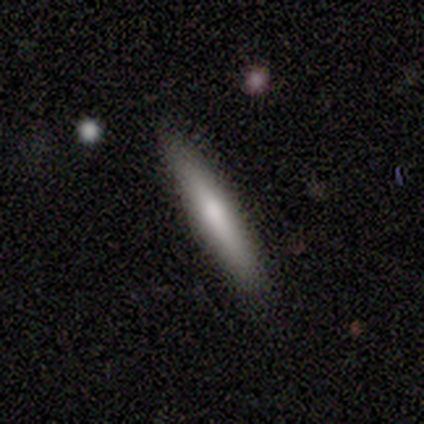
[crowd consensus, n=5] Consensus on every question: smooth or featured — smooth (100%); how rounded — cigar-shaped (100%); merging — none (100%).